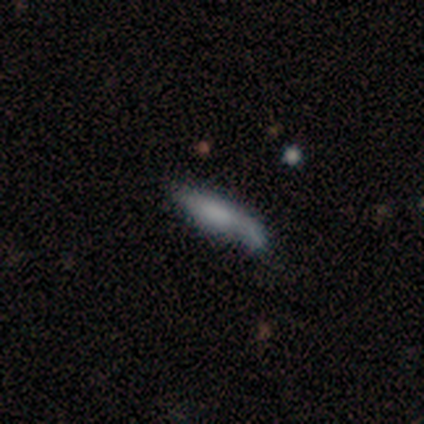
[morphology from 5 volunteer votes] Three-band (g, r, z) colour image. It shows a smooth galaxy with no disk features (80%) that is cigar-shaped (75%). Merging: none (40%, tied with merger).